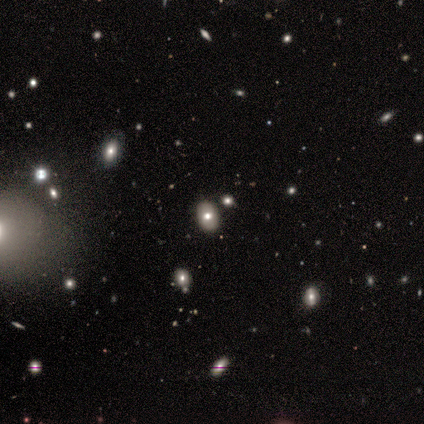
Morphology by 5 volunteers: type=smooth (80%); roundness=in between (100%); merging=none (75%).